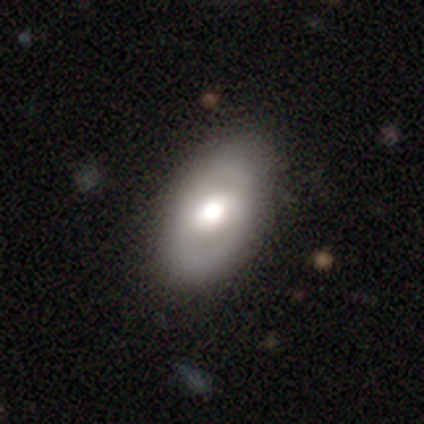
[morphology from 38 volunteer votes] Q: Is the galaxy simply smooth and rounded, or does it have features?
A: smooth — 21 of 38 (55%).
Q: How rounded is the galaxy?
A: in between — 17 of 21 (81%).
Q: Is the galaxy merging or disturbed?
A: none — 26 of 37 (70%).